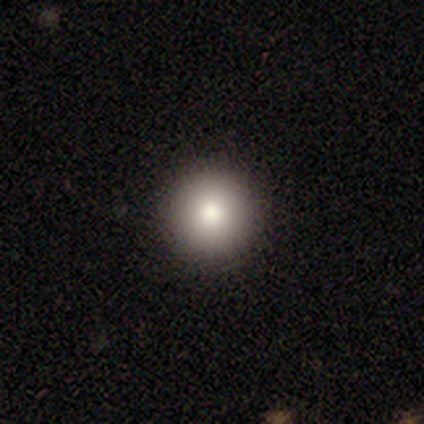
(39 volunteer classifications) A smooth galaxy with no disk features (74%) that is round (97%). Merging: none (94%).